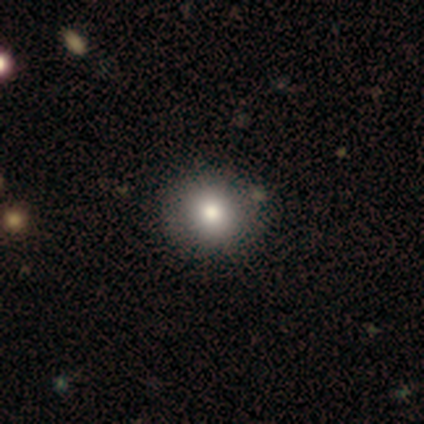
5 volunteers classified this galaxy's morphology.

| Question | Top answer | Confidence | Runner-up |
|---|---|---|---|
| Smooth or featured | smooth | 80% | featured or disk (20%) |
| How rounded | round | 100% | — |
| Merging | none | 100% | — |